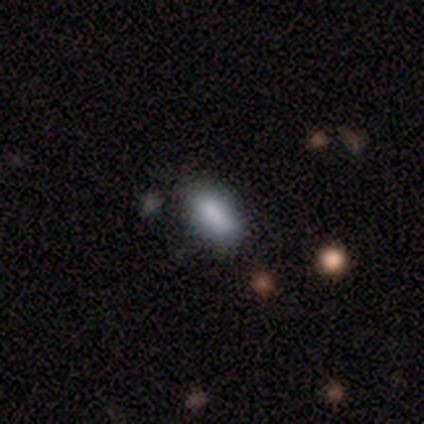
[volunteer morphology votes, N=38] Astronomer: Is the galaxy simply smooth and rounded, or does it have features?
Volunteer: smooth — 92%.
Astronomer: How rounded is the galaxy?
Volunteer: in between — 86%.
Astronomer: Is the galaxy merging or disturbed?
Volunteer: none — 86%.